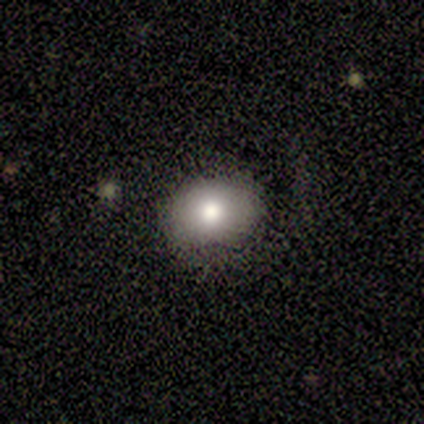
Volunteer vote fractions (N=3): smooth-or-featured: smooth: 67% | star or artifact: 33% | featured or disk: 0%
  how-rounded: round: 50% (tied) | in between: 50% (tied) | cigar-shaped: 0%
  merging: none: 50% (tied) | minor disturbance: 50% (tied) | major disturbance: 0% | merger: 0%